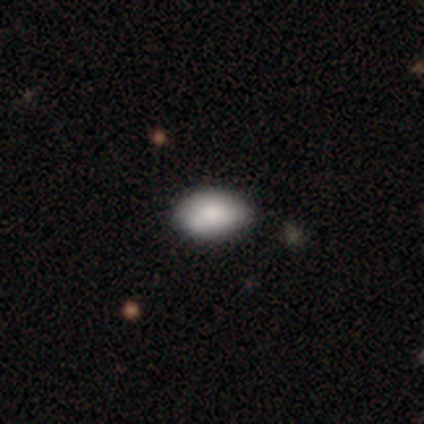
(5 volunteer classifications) Smooth or featured: smooth — 100%
How rounded: in between — 100%
Merging: none — 80% (minor disturbance — 20%)